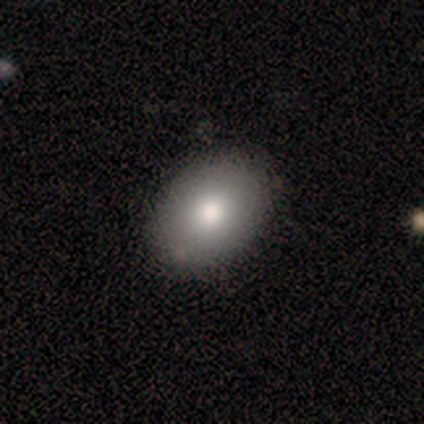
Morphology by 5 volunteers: Smooth or featured: smooth — 40% (tied with star or artifact — 40%)
How rounded: in between — 100%
Merging: none — 100%